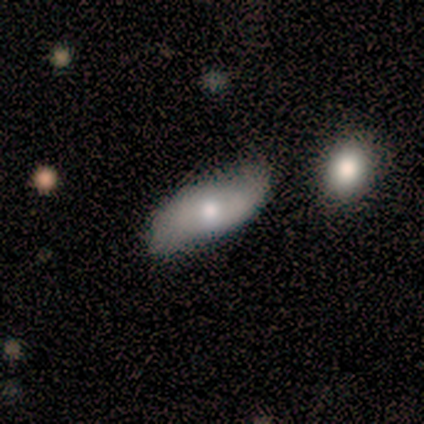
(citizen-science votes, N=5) A smooth galaxy with no disk features (60%) that is in between round and cigar-shaped (100%). Merging: none (40%, tied with minor disturbance).